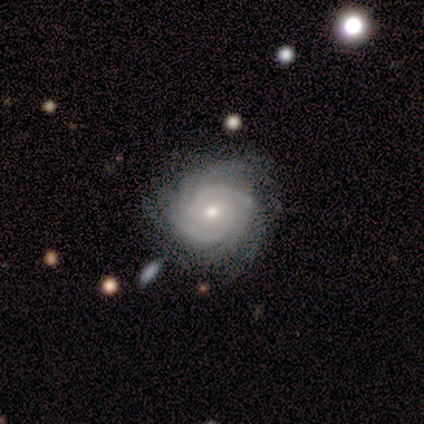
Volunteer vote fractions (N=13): Smooth or featured?
  - featured or disk: 92% *
  - star or artifact: 8%
  - smooth: 0%
Edge-on disk?
  - no: 100% *
  - yes: 0%
Bar?
  - no: 83% *
  - strong: 8%
  - weak: 8%
Spiral arms?
  - yes: 100% *
  - no: 0%
Spiral winding?
  - tight: 83% *
  - medium: 17%
  - loose: 0%
Spiral arm count?
  - more than 4: 33% *
  - 2: 25%
  - 3: 17%
  - can't tell: 17%
  - 4: 8%
  - 1: 0%
Bulge size?
  - small: 75% *
  - moderate: 25%
  - dominant: 0%
  - large: 0%
  - none: 0%
Merging?
  - none: 92% *
  - minor disturbance: 8%
  - major disturbance: 0%
  - merger: 0%